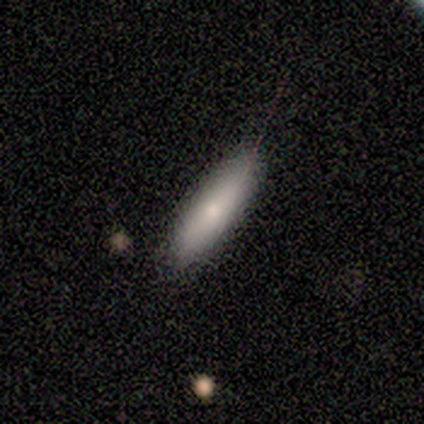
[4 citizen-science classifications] A smooth galaxy with no disk features (75%) that is cigar-shaped (100%). Merging: none (75%).